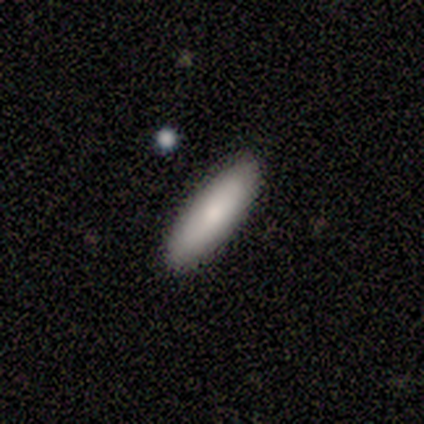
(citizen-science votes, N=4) Smooth or featured?
  - smooth: 75% *
  - featured or disk: 25%
  - star or artifact: 0%
How rounded?
  - in between: 100% *
  - round: 0%
  - cigar-shaped: 0%
Merging?
  - none: 75% *
  - major disturbance: 25%
  - minor disturbance: 0%
  - merger: 0%